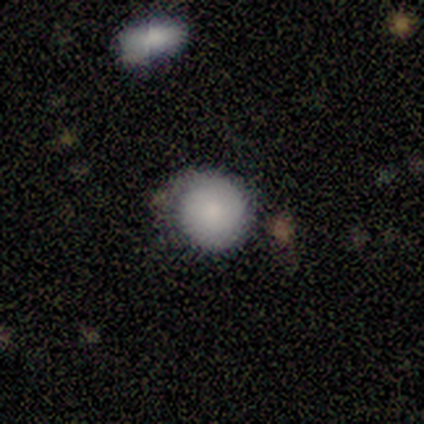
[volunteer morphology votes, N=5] Smooth or featured? smooth (100%)
How rounded? round (100%)
Merging? none (80%)